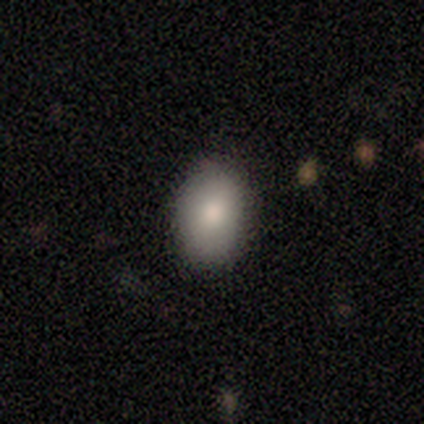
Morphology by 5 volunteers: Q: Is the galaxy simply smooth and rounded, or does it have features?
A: smooth — 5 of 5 (100%).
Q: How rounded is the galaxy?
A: in between — 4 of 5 (80%).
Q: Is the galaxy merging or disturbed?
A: none — 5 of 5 (100%).